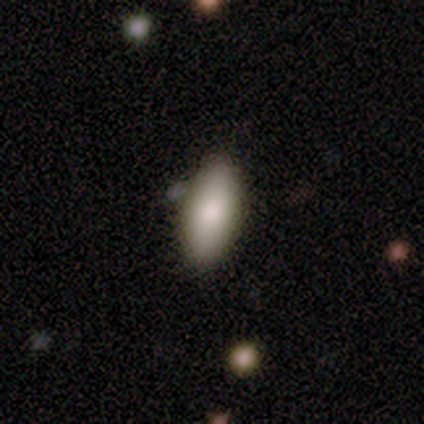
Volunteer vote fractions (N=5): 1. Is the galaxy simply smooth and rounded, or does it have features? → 80% smooth, 20% featured or disk, 0% star or artifact.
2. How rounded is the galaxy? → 100% in between, 0% round, 0% cigar-shaped.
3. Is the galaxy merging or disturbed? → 100% none, 0% minor disturbance, 0% major disturbance, 0% merger.